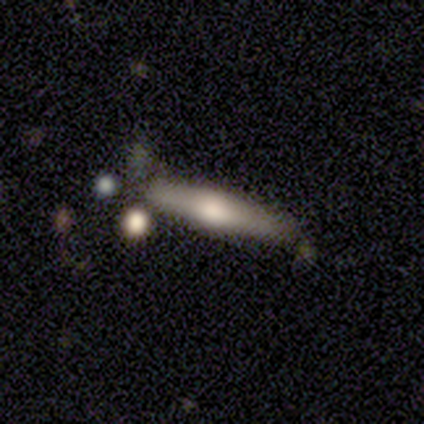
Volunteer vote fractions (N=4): A smooth galaxy with no disk features (50%, tied with featured or disk) that is in between round and cigar-shaped (50%, tied with cigar-shaped). Merging: none (75%).